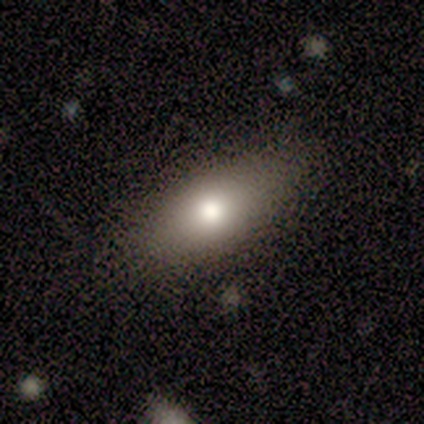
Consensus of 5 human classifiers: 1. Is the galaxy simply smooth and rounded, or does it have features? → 60% smooth, 40% featured or disk, 0% star or artifact.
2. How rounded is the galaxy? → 100% in between, 0% round, 0% cigar-shaped.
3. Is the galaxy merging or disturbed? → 60% none, 40% minor disturbance, 0% major disturbance, 0% merger.